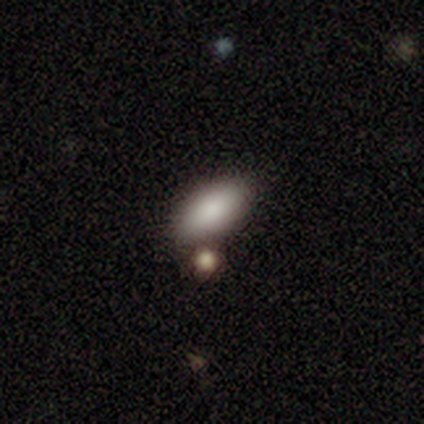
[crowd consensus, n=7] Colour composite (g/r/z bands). It shows a smooth galaxy with no disk features (100%) that is in between round and cigar-shaped (100%). Merging: none (86%).